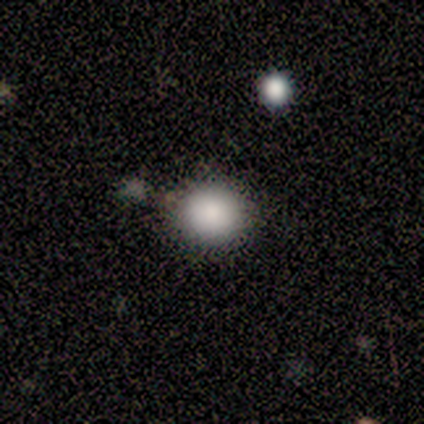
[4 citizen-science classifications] This is possibly a smooth galaxy (50%, tied with star or artifact). How rounded: possibly round (50%, tied with in between). Merging: possibly none (50%, tied with minor disturbance).